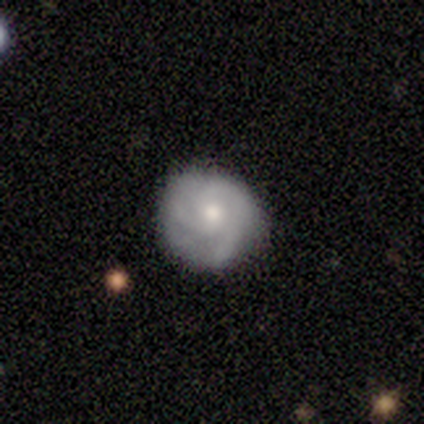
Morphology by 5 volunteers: Smooth or featured? smooth (40%, tied with featured or disk)
How rounded? round (100%)
Merging? none (100%)